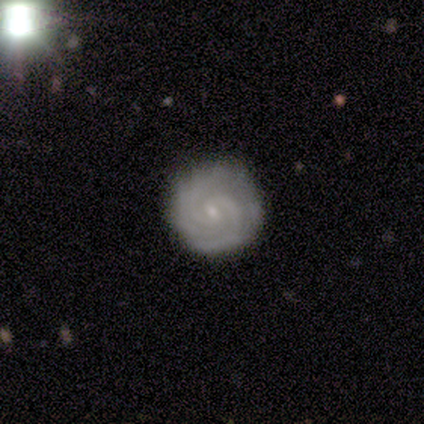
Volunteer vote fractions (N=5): Volunteers were most divided on "smooth or featured": featured or disk: 60%, smooth: 40%, star or artifact: 0%. More confident: edge-on disk — no (100%); bar — no (100%); spiral arms — yes (100%); spiral winding — tight (100%); bulge size — small (100%); merging — none (100%); spiral arm count — 3 (67%).